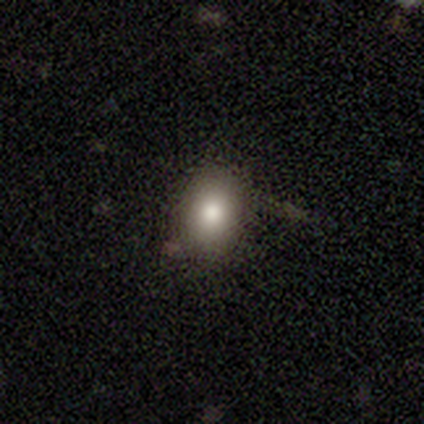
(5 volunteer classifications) A smooth galaxy with no disk features (80%) that is in between round and cigar-shaped (75%).

Vote fractions:
- Smooth or featured? smooth: 80% / star or artifact: 20% / featured or disk: 0%
- How rounded? in between: 75% / round: 25% / cigar-shaped: 0%
- Merging? none: 50% / minor disturbance: 25% / merger: 25% / major disturbance: 0%